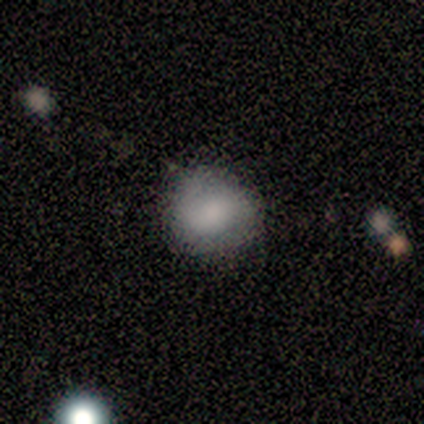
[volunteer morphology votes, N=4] Volunteers were most divided on "smooth or featured" (2-way tie): smooth: 50%, featured or disk: 50%, star or artifact: 0%. More confident: how rounded — round (100%); merging — none (75%).